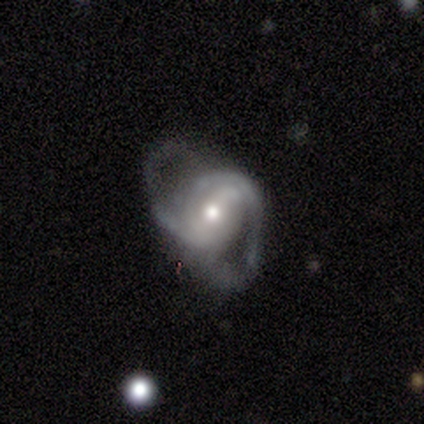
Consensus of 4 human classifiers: Q: Smooth or featured?
A: featured or disk (100%)
Q: Edge-on disk?
A: no (75%); runner-up: yes (25%)
Q: Bar?
A: no (67%); runner-up: weak (33%)
Q: Spiral arms?
A: yes (100%)
Q: Spiral winding?
A: medium (67%); runner-up: tight (33%)
Q: Spiral arm count?
A: 2 (67%); runner-up: 3 (33%)
Q: Bulge size?
A: moderate (67%); runner-up: small (33%)
Q: Merging?
A: major disturbance (50%); runner-up: minor disturbance (25%)